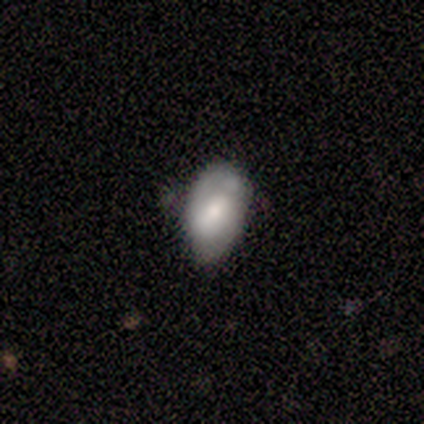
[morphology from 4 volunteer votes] Smooth or featured? smooth (50%, tied with featured or disk)
How rounded? in between (100%)
Merging? none (75%)